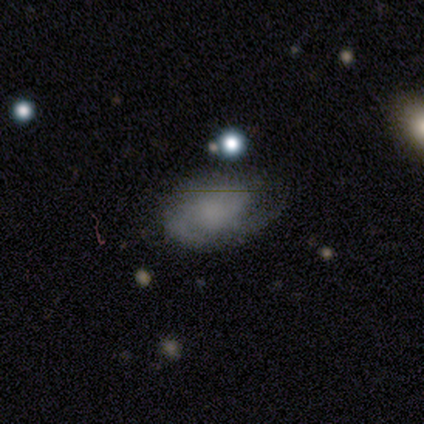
Q: Smooth or featured?
A: featured or disk (62%); runner-up: smooth (32%)
Q: Edge-on disk?
A: no (100%)
Q: Bar?
A: no (80%); runner-up: weak (20%)
Q: Spiral arms?
A: yes (88%); runner-up: no (12%)
Q: Spiral winding?
A: medium (50%); runner-up: tight (32%)
Q: Spiral arm count?
A: 2 (45%); runner-up: 3 (23%)
Q: Bulge size?
A: none (76%); runner-up: small (12%)
Q: Merging?
A: none (63%); runner-up: major disturbance (21%)